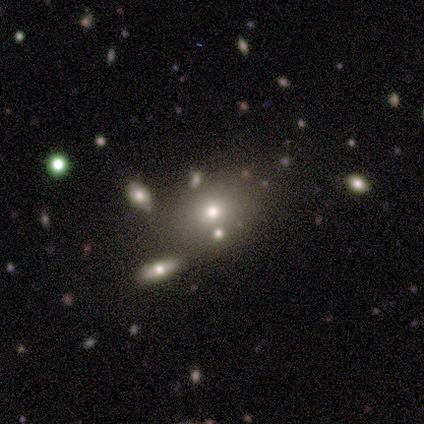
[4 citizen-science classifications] A smooth galaxy with no disk features (50%) that is round (50%, tied with in between). Merging: none (100%).